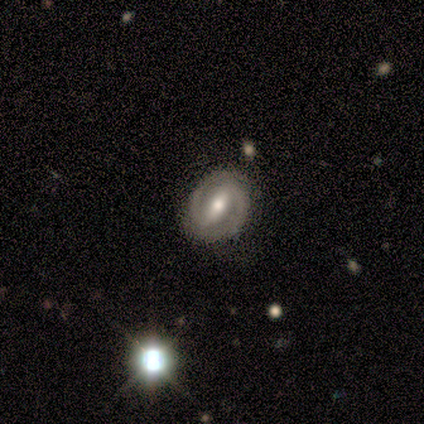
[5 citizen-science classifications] Overall: featured or disk (100%). Edge-on disk: no (100%). Bar: strong (100%). Spiral arms: yes (100%). Spiral arm count: 2 (100%). Spiral winding: tight (60%; medium 40%). Bulge size: moderate (80%). Merging: none (80%).